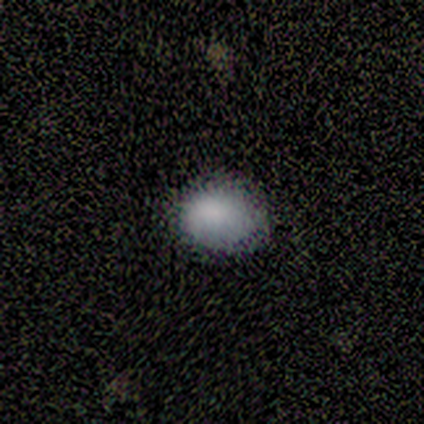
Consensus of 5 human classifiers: This is clearly a smooth galaxy (100%). How rounded: clearly in between (100%). Merging: likely none (60%).